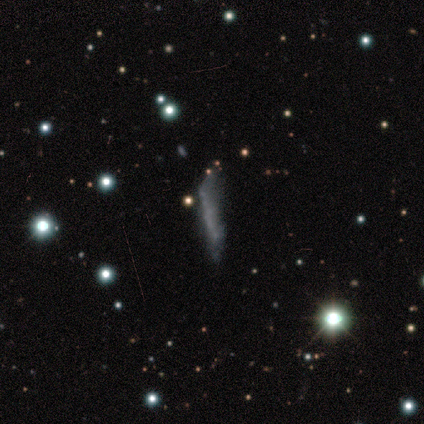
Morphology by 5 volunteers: Smooth or featured?
  - smooth: 40% * (tied)
  - featured or disk: 40% * (tied)
  - star or artifact: 20%
How rounded?
  - cigar-shaped: 100% *
  - round: 0%
  - in between: 0%
Merging?
  - minor disturbance: 75% *
  - major disturbance: 25%
  - none: 0%
  - merger: 0%